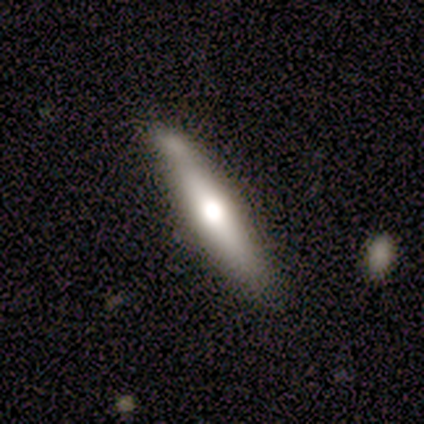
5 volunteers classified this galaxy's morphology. Smooth or featured: featured or disk — 80% (star or artifact — 20%)
Edge-on disk: yes — 75% (no — 25%)
Edge-on bulge: rounded — 100%
Merging: none — 50% (tied with minor disturbance — 50%)